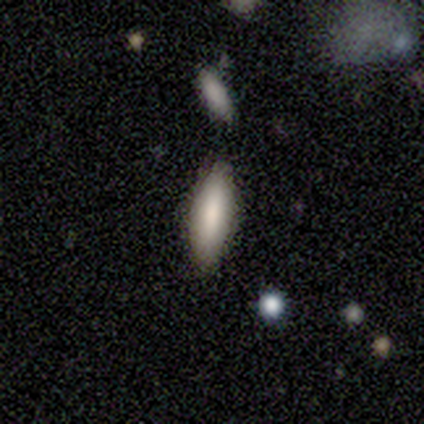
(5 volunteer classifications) smooth 60%, star or artifact 40%, featured or disk 0%. Down the decision tree: how rounded — in between (67%); merging — none (67%).